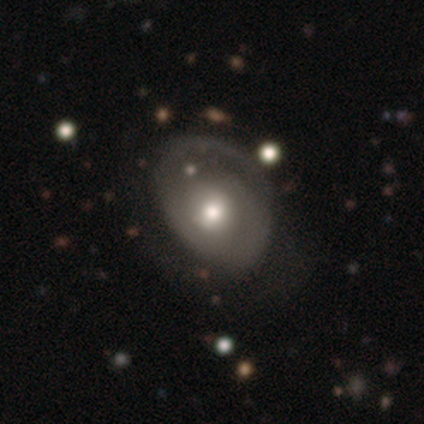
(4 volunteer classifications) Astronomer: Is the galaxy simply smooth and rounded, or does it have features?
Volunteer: featured or disk — 75%.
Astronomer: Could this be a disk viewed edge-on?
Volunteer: no — 100%.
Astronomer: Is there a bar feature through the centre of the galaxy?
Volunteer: no — 100%.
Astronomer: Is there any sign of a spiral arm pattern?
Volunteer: yes — 100%.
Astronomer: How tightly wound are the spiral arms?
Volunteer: tight — 67%.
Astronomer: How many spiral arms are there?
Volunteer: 2 — 67%.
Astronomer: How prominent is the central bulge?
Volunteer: large — 33%, tied with moderate and small at 33%.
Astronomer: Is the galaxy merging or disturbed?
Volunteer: minor disturbance — 50%.